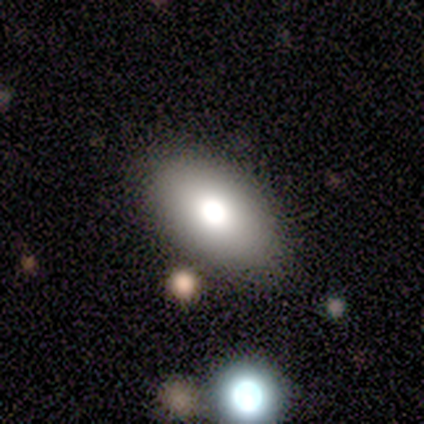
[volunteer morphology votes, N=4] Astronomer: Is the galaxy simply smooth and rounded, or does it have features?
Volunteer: smooth — 75%.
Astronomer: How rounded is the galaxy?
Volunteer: in between — 100%.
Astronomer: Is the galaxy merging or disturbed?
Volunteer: none — 75%.